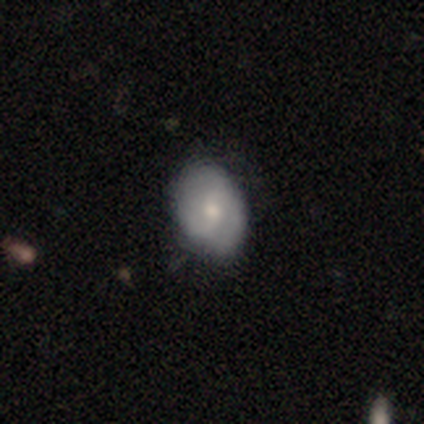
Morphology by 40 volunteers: This is possibly a smooth galaxy (50%, tied with featured or disk). How rounded: likely in between (75%). Merging: possibly none (57%).